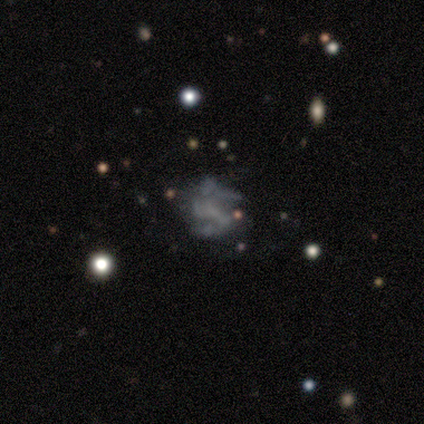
Overall: featured or disk (50%; smooth 33%). Edge-on disk: no (100%). Bar: no (67%; weak 33%). Spiral arms: yes (67%; no 33%). Spiral arm count: 2 (100%). Spiral winding: medium (100%). Bulge size: moderate (33%, tied with small and none). Merging: none (60%; minor disturbance 20%).